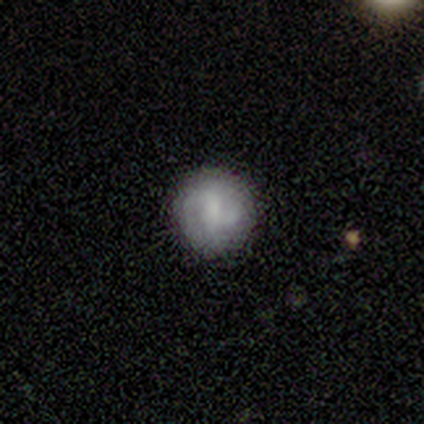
This appears to be a featured or disk galaxy (40%, tied with star or artifact) with a weak bar (100%), 2 (100%) tight (100%) spiral arms (100%) and a moderate central bulge (50%, tied with small). Merging: none (67%).